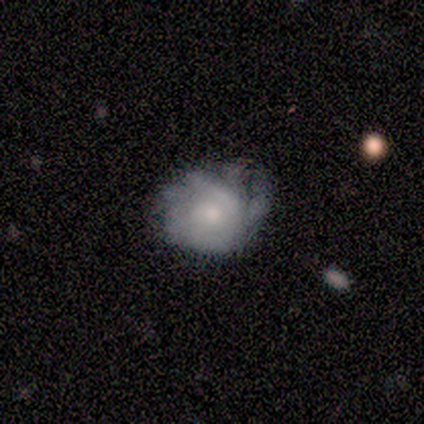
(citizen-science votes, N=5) Smooth or featured? smooth (60%)
How rounded? round (67%)
Merging? none (40%, tied with minor disturbance)